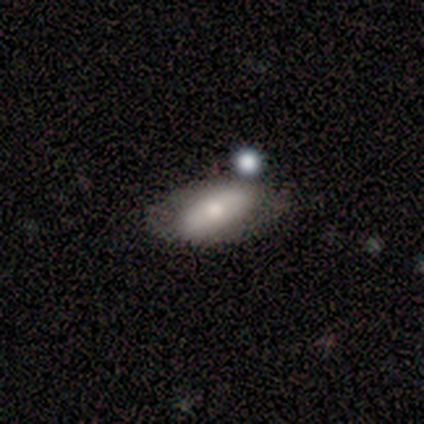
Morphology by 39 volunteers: Smooth or featured?
  - smooth: 62% *
  - featured or disk: 28%
  - star or artifact: 10%
How rounded?
  - in between: 96% *
  - round: 4%
  - cigar-shaped: 0%
Merging?
  - none: 63% *
  - minor disturbance: 17%
  - merger: 14%
  - major disturbance: 6%